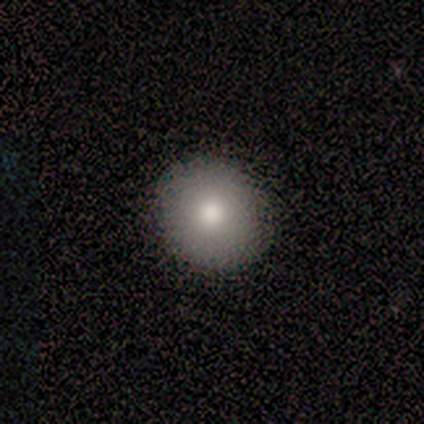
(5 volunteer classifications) Smooth or featured?
  - smooth: 80% *
  - star or artifact: 20%
  - featured or disk: 0%
How rounded?
  - round: 75% *
  - in between: 25%
  - cigar-shaped: 0%
Merging?
  - none: 100% *
  - minor disturbance: 0%
  - major disturbance: 0%
  - merger: 0%